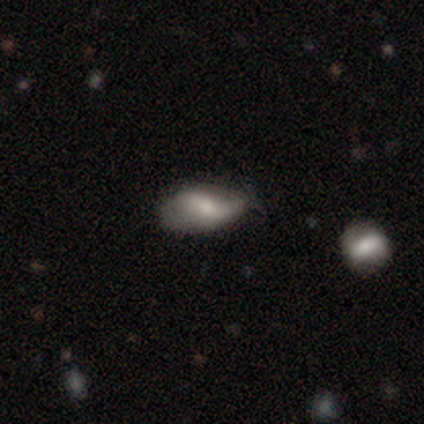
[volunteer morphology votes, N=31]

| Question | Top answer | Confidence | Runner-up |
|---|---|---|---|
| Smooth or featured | featured or disk | 52% | smooth (45%) |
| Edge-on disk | no | 100% | — |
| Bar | no | 50% | weak (31%) |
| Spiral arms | no | 62% | yes (38%) |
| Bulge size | moderate | 44% | small (31%) |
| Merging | none | 53% | minor disturbance (37%) |